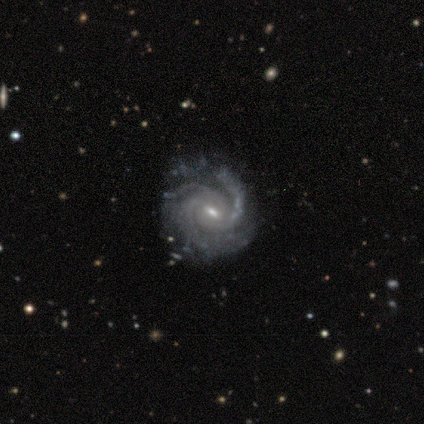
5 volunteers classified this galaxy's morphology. Overall: featured or disk (100%). Edge-on disk: no (100%). Bar: weak (40%, tied with no). Spiral arms: yes (100%). Spiral arm count: 3 (100%). Spiral winding: medium (60%; tight 40%). Bulge size: small (80%). Merging: none (100%).